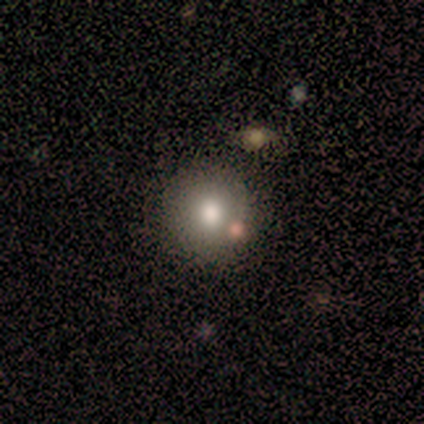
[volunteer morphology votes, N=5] smooth 80%, star or artifact 20%, featured or disk 0%. Down the decision tree: how rounded — round (75%); merging — none (75%).